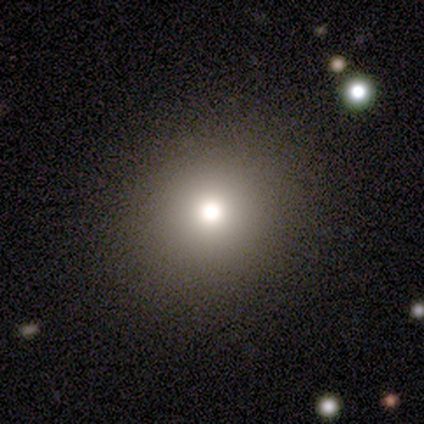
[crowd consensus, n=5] Morphology: type=smooth (80%); roundness=round (50%, tied with in between); merging=none (60%).